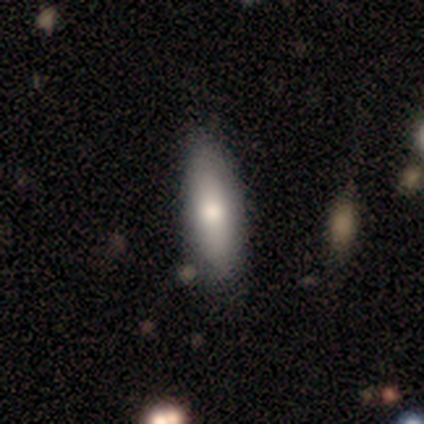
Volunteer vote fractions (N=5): Volunteers were most divided on "how rounded": in between: 75%, cigar-shaped: 25%, round: 0%. More confident: smooth or featured — smooth (80%); merging — none (80%).